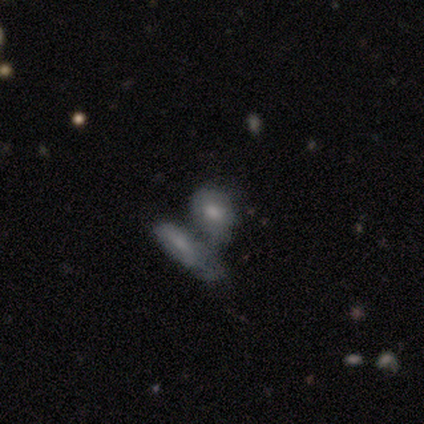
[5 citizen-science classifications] Smooth or featured? 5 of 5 (100%) said smooth. How rounded? 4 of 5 (80%) said in between. Merging? 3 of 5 (60%) said merger.